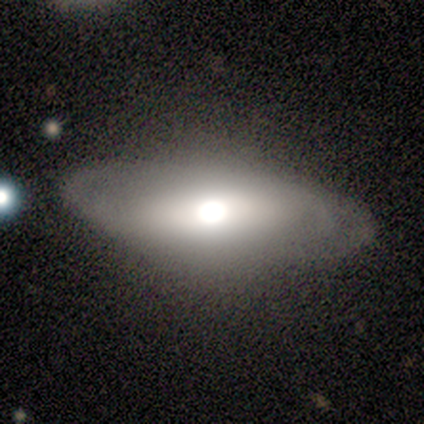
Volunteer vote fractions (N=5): Overall: featured or disk (60%; smooth 40%). Edge-on disk: yes (67%; no 33%). Edge-on bulge: rounded (100%). Merging: none (80%).